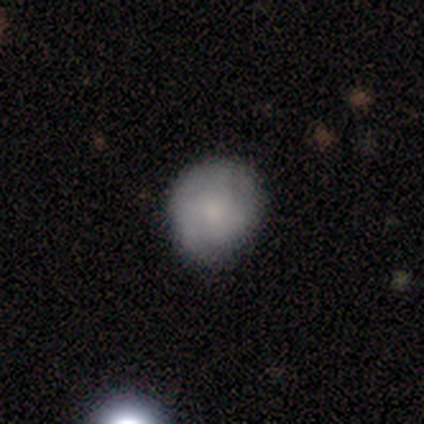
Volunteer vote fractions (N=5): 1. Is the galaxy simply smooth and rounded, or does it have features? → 60% featured or disk, 40% smooth, 0% star or artifact.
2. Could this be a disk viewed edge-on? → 100% no, 0% yes.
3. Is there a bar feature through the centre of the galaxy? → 100% no, 0% strong, 0% weak.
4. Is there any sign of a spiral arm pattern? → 67% yes, 33% no.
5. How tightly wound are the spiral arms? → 50% tight (tied), 50% medium (tied), 0% loose.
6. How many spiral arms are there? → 50% 2 (tied), 50% 3 (tied), 0% 1, 0% 4, 0% more than 4, 0% can't tell.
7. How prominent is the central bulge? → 33% moderate (tied), 33% small (tied), 33% none (tied), 0% dominant, 0% large.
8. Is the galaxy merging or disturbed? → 100% none, 0% minor disturbance, 0% major disturbance, 0% merger.